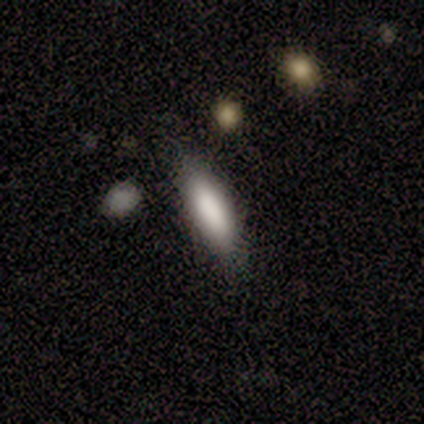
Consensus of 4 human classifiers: Overall: smooth (100%). How rounded: cigar-shaped (100%). Merging: none (100%).